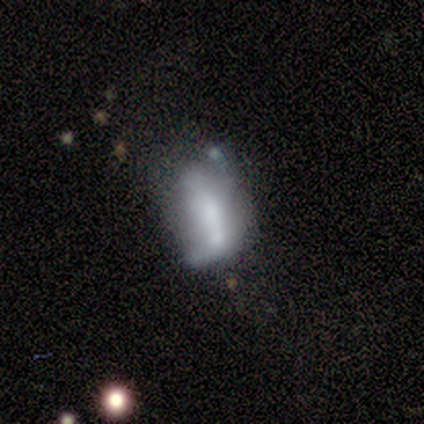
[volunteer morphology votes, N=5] A smooth galaxy with no disk features (60%) that is in between round and cigar-shaped (67%). Merging: major disturbance (50%, tied with merger).